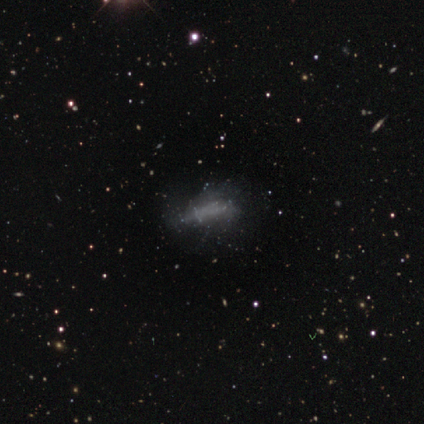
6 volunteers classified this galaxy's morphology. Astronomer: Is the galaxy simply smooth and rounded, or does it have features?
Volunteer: smooth — 50%, tied with star or artifact at 50%.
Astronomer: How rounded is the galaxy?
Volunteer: in between — 67%.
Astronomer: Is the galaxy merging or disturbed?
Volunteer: none — 67%.